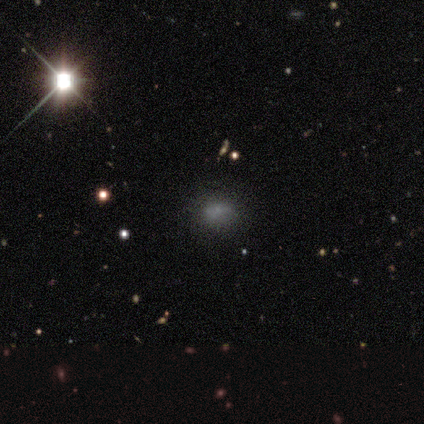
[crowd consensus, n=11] Smooth or featured: smooth — 64% (star or artifact — 27%)
How rounded: round — 57% (in between — 43%)
Merging: none — 100%